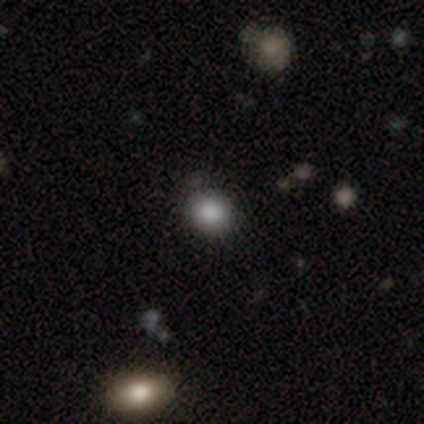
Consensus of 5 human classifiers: Morphology: type=smooth (60%); roundness=round (67%); merging=none (67%).